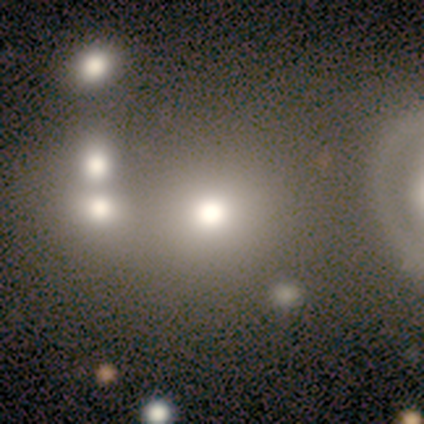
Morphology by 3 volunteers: A smooth galaxy with no disk features (100%) that is round (100%). Merging: none (67%).